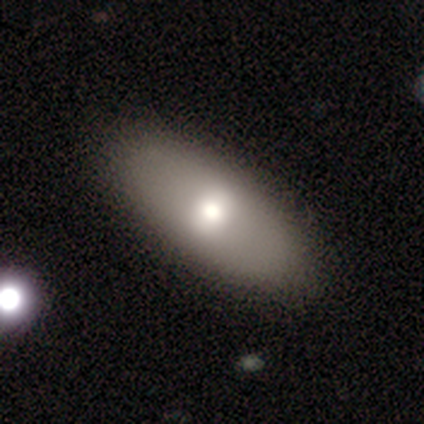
smooth 60%, featured or disk 40%, star or artifact 0%. Down the decision tree: how rounded — in between (100%); merging — none (80%).